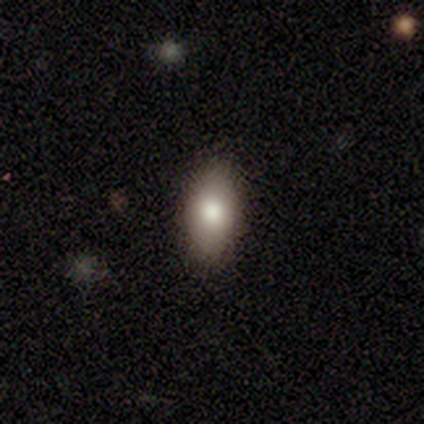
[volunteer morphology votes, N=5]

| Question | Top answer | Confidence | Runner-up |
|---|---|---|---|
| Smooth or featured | smooth | 100% | — |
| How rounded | in between | 100% | — |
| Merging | none | 80% | minor disturbance (20%) |